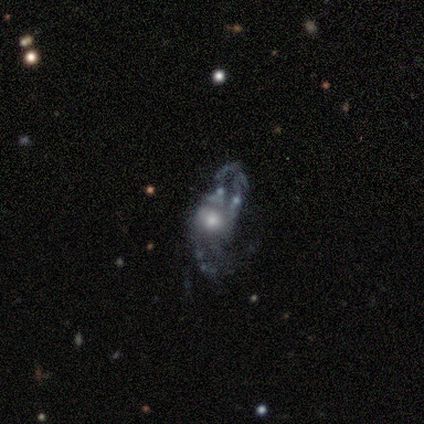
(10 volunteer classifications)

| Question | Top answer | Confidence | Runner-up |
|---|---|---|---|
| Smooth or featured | featured or disk | 80% | smooth (10%) |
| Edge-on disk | no | 100% | — |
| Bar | no | 75% | weak (25%) |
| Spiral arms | yes | 88% | no (12%) |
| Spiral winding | medium | 43% | tied: loose (43%) |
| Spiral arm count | can't tell | 57% | 1 (14%) |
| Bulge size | moderate | 50% | dominant (12%) |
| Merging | major disturbance | 67% | none (11%) |